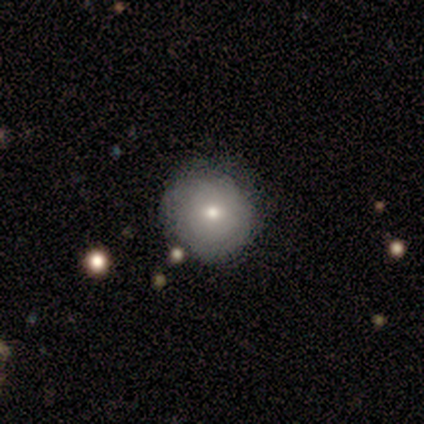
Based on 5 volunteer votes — smooth 80%, featured or disk 20%, star or artifact 0%. Down the decision tree: how rounded — round (100%); merging — none (60%).